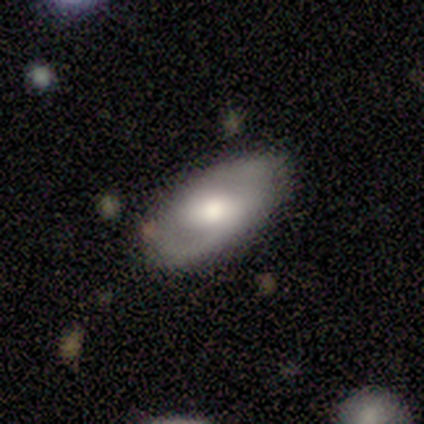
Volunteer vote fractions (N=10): A featured or disk galaxy (60%) with a weak bar (80%), 2 (80%) tight (60%) spiral arms (100%) and a moderate central bulge (60%).

Vote fractions:
- Smooth or featured? featured or disk: 60% / smooth: 40% / star or artifact: 0%
- Edge-on disk? no: 83% / yes: 17%
- Bar? weak: 80% / no: 20% / strong: 0%
- Spiral arms? yes: 100% / no: 0%
- Spiral winding? tight: 60% / medium: 40% / loose: 0%
- Spiral arm count? 2: 80% / can't tell: 20% / 1: 0% / 3: 0% / 4: 0% / more than 4: 0%
- Bulge size? moderate: 60% / large: 40% / dominant: 0% / small: 0% / none: 0%
- Merging? none: 80% / minor disturbance: 10% / merger: 10% / major disturbance: 0%